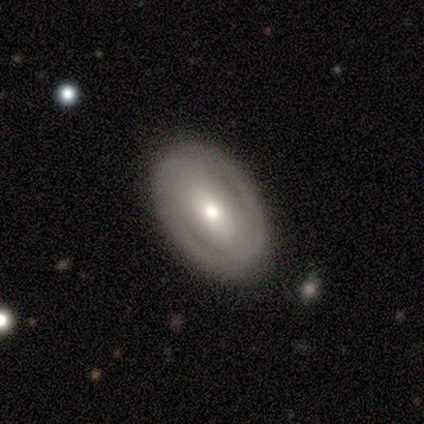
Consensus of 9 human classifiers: Q: Smooth or featured?
A: featured or disk (67%); runner-up: smooth (33%)
Q: Edge-on disk?
A: no (83%); runner-up: yes (17%)
Q: Bar?
A: strong (40%); tied with: no (40%)
Q: Spiral arms?
A: yes (60%); runner-up: no (40%)
Q: Spiral winding?
A: tight (67%); runner-up: loose (33%)
Q: Spiral arm count?
A: 2 (100%)
Q: Bulge size?
A: small (60%); runner-up: moderate (40%)
Q: Merging?
A: none (89%); runner-up: minor disturbance (11%)